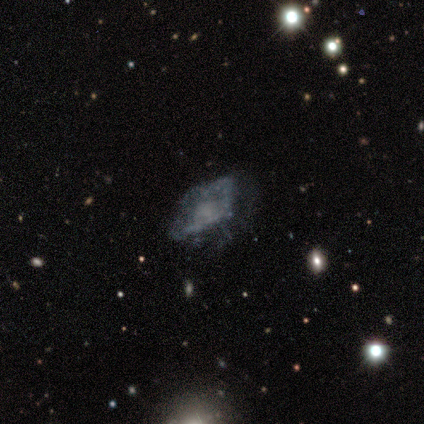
Smooth or featured? 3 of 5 (60%) said featured or disk. Edge-on disk? 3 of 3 (100%) said no. Bar? 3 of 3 (100%) said no. Spiral arms? 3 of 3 (100%) said no. Bulge size? 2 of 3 (67%) said small. Merging? 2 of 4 (50%) said none.